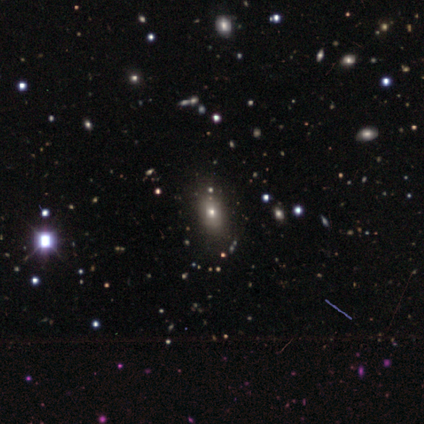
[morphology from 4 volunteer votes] A smooth galaxy with no disk features (100%) that is in between round and cigar-shaped (75%). Merging: none (75%).